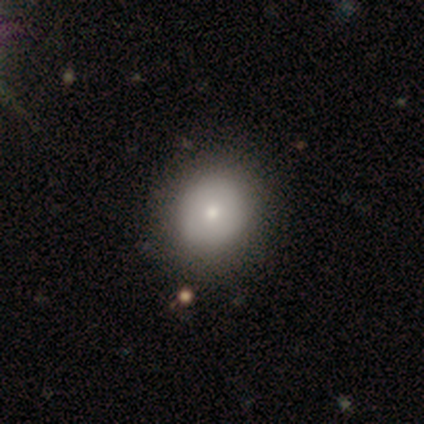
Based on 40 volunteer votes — smooth-or-featured: smooth: 60% | featured or disk: 35% | star or artifact: 5%
  how-rounded: round: 79% | in between: 21% | cigar-shaped: 0%
  merging: none: 55% | minor disturbance: 11% | merger: 5% | major disturbance: 3%